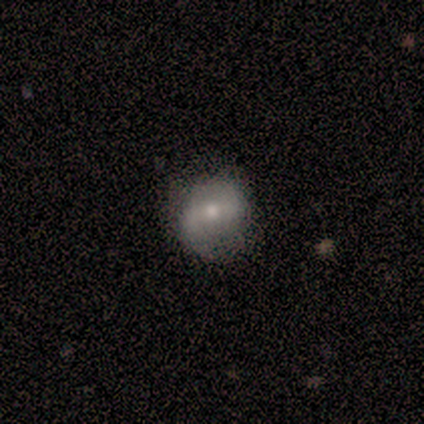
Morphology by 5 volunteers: smooth_or_featured: featured or disk (p=0.60) [alt: smooth p=0.20]
disk_edge_on: no (p=1.00)
bar: weak (p=0.67) [alt: no p=0.33]
has_spiral_arms: yes (p=1.00)
spiral_winding: loose (p=0.67) [alt: medium p=0.33]
spiral_arm_count: 2 (p=1.00)
bulge_size: moderate (p=0.67) [alt: small p=0.33]
merging: none (p=0.75) [alt: minor disturbance p=0.25]